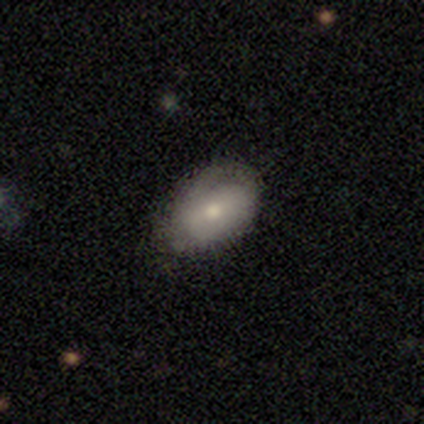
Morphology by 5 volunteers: Smooth or featured?
  - smooth: 80% *
  - featured or disk: 20%
  - star or artifact: 0%
How rounded?
  - in between: 75% *
  - round: 25%
  - cigar-shaped: 0%
Merging?
  - none: 80% *
  - minor disturbance: 20%
  - major disturbance: 0%
  - merger: 0%